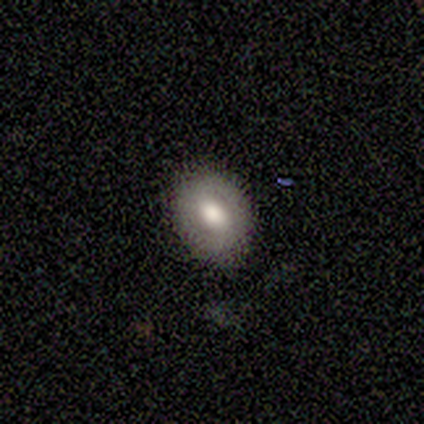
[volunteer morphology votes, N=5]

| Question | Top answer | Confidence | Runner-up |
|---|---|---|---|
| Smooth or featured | smooth | 60% | featured or disk (40%) |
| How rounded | in between | 67% | round (33%) |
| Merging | none | 100% | — |